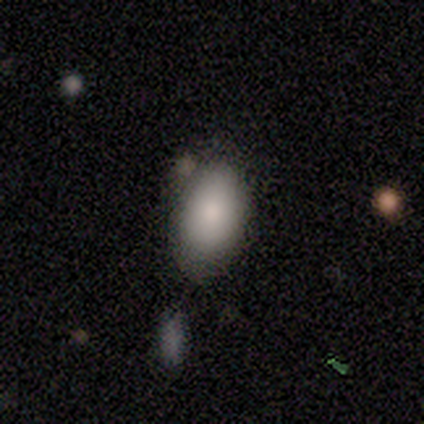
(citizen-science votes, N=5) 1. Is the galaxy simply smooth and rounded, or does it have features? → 100% smooth, 0% featured or disk, 0% star or artifact.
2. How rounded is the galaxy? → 100% in between, 0% round, 0% cigar-shaped.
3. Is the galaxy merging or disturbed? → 80% none, 20% merger, 0% minor disturbance, 0% major disturbance.